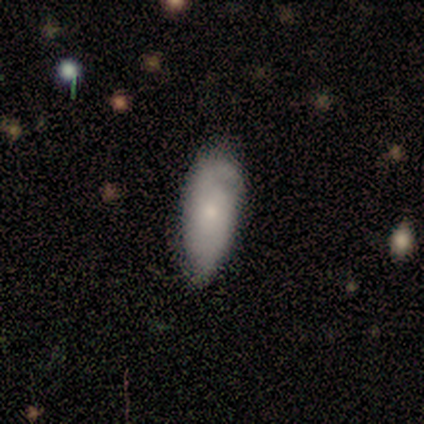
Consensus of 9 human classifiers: Q: Smooth or featured?
A: smooth (67%); runner-up: star or artifact (22%)
Q: How rounded?
A: in between (100%)
Q: Merging?
A: none (43%); tied with: minor disturbance (43%)